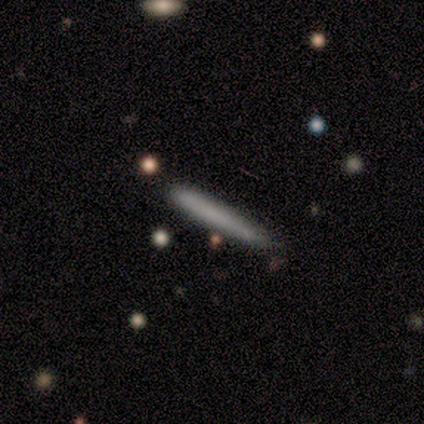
Morphology: type=smooth (60%); roundness=cigar-shaped (100%); merging=none (100%).